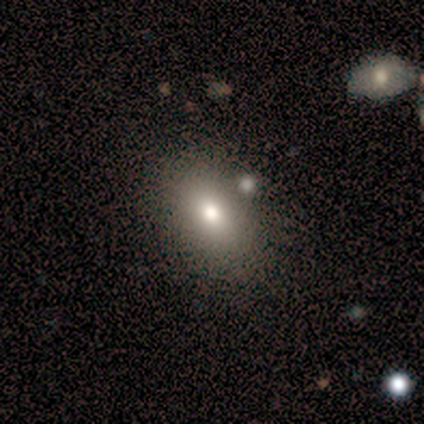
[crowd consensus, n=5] smooth 80%, star or artifact 20%, featured or disk 0%. Down the decision tree: how rounded — in between (100%); merging — none (75%).